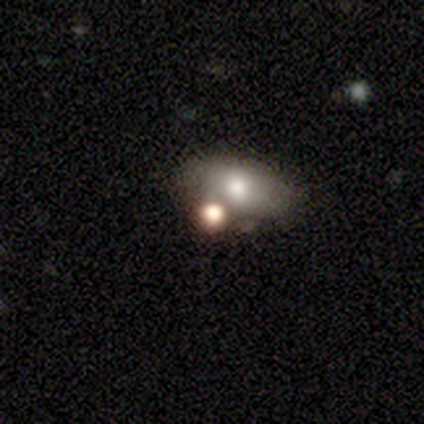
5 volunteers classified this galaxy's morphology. smooth-or-featured: smooth: 60% | featured or disk: 20% | star or artifact: 20%
  how-rounded: in between: 100% | round: 0% | cigar-shaped: 0%
  merging: none: 50% (tied) | merger: 50% (tied) | minor disturbance: 0% | major disturbance: 0%